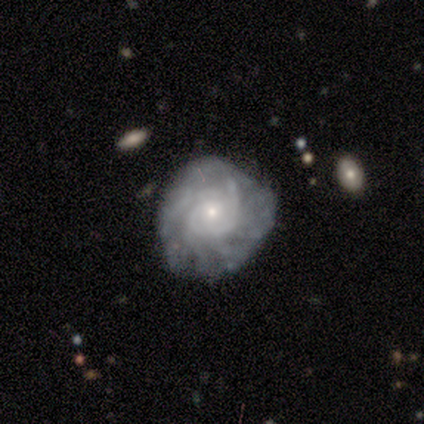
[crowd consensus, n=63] Q: Smooth or featured?
A: featured or disk (95%); runner-up: smooth (3%)
Q: Edge-on disk?
A: no (98%); runner-up: yes (2%)
Q: Bar?
A: no (92%); runner-up: weak (8%)
Q: Spiral arms?
A: yes (90%); runner-up: no (10%)
Q: Spiral winding?
A: tight (75%); runner-up: medium (17%)
Q: Spiral arm count?
A: can't tell (43%); runner-up: more than 4 (28%)
Q: Bulge size?
A: small (71%); runner-up: moderate (27%)
Q: Merging?
A: none (61%); runner-up: minor disturbance (34%)